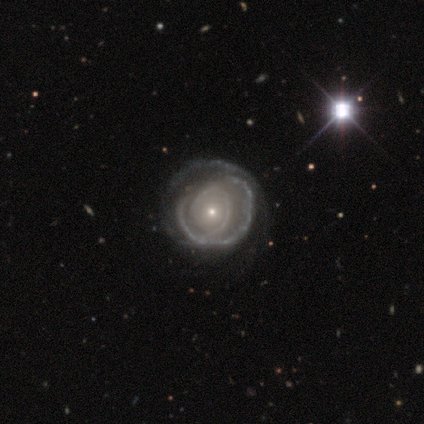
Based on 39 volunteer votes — Overall: featured or disk (87%). Edge-on disk: no (97%). Bar: no (88%). Spiral arms: yes (85%). Spiral arm count: can't tell (46%; 2 32%). Spiral winding: tight (57%; medium 36%). Bulge size: small (73%). Merging: none (64%).